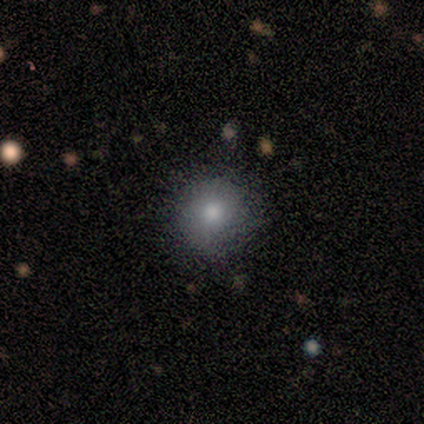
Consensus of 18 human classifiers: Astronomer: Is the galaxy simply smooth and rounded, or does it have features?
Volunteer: smooth — 61%.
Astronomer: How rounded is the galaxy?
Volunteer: round — 82%.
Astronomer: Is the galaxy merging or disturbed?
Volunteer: none — 80%.